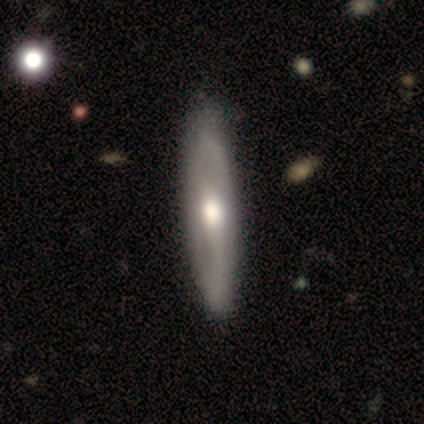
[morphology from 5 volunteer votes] Smooth or featured: smooth — 40% (tied with featured or disk — 40%)
How rounded: cigar-shaped — 100%
Merging: none — 75% (major disturbance — 25%)